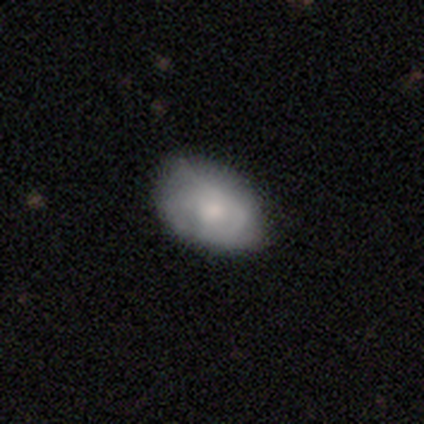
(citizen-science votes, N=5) Smooth or featured? featured or disk (60%)
Edge-on disk? no (100%)
Bar? no (100%)
Spiral arms? yes (67%)
Spiral winding? tight (100%)
Spiral arm count? can't tell (100%)
Bulge size? moderate (67%)
Merging? none (60%)